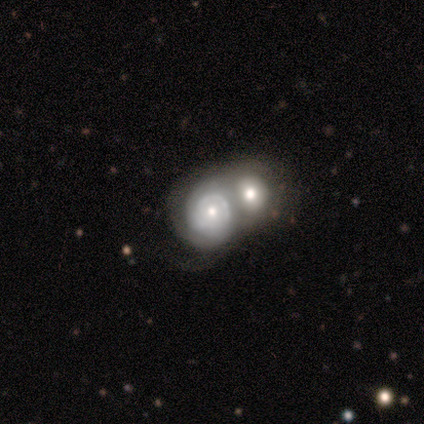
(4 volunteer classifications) Morphology: type=featured or disk (75%); edge-on=no (100%); bar=no (67%); spiral arms=yes (100%); winding=tight (67%); arm count=2 (33%, tied with 3 and can't tell); bulge=moderate (100%); merging=merger (50%).